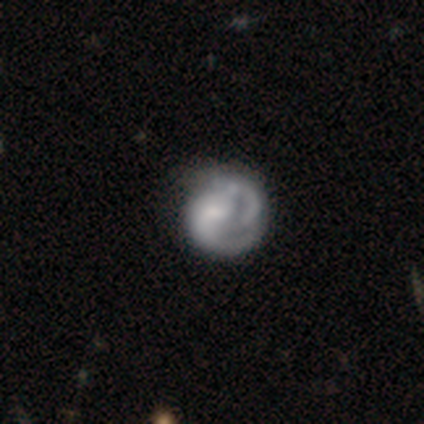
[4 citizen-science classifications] smooth_or_featured: smooth (p=0.75) [alt: star or artifact p=0.25]
how_rounded: round (p=1.00)
merging: minor disturbance (p=0.67) [alt: none p=0.33]